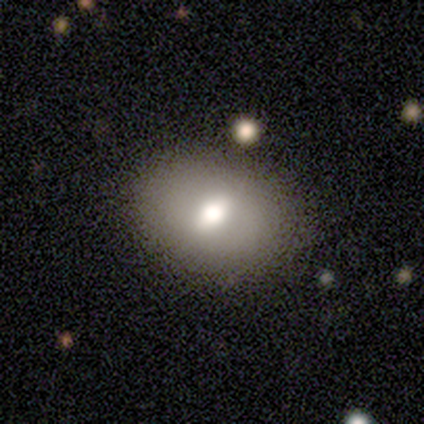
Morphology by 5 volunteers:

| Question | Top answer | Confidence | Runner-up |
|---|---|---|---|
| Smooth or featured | smooth | 40% | tied: featured or disk (40%) |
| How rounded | in between | 100% | — |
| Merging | none | 100% | — |